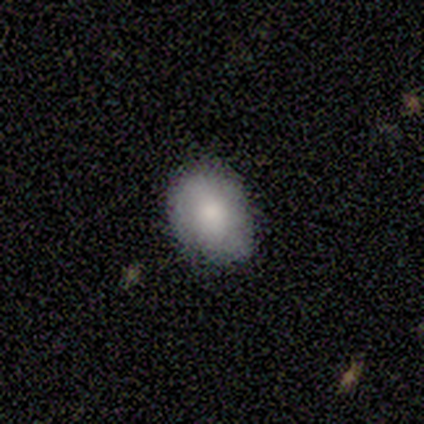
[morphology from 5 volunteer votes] smooth_or_featured: smooth (p=0.60) [alt: featured or disk p=0.40]
how_rounded: in between (p=0.67) [alt: round p=0.33]
merging: none (p=1.00)